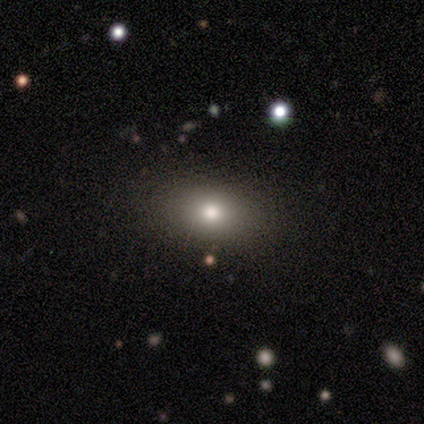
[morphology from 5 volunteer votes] Volunteers were most divided on "how rounded": in between: 75%, round: 25%, cigar-shaped: 0%. More confident: smooth or featured — smooth (80%); merging — none (75%).